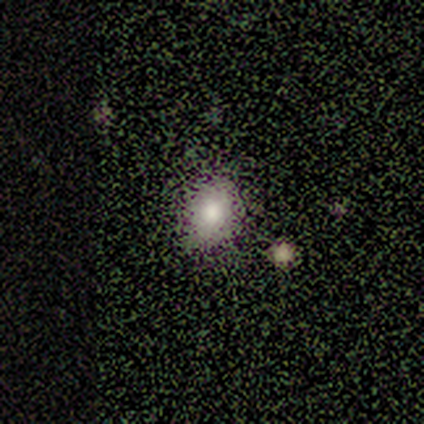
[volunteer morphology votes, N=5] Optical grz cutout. It shows a smooth galaxy with no disk features (80%) that is in between round and cigar-shaped (75%). Merging: none (75%).